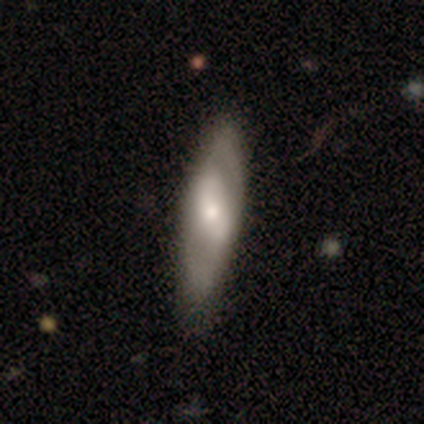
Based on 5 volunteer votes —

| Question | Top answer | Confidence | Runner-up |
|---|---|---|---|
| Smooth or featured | featured or disk | 80% | star or artifact (20%) |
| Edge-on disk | no | 100% | — |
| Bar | weak | 50% | tied: no (50%) |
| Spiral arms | yes | 50% | tied: no (50%) |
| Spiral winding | medium | 50% | tied: loose (50%) |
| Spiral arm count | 2 | 50% | tied: can't tell (50%) |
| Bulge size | small | 50% | dominant (25%) |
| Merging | none | 100% | — |